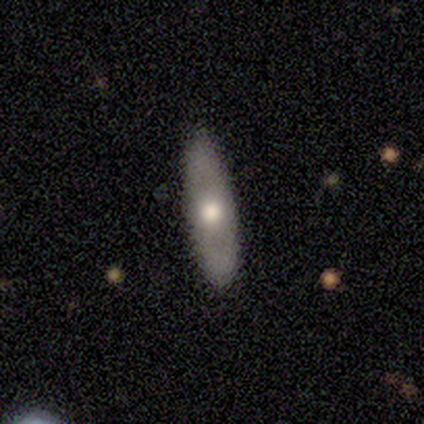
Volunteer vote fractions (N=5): Q: Smooth or featured?
A: featured or disk (60%); runner-up: smooth (20%)
Q: Edge-on disk?
A: yes (100%)
Q: Edge-on bulge?
A: rounded (67%); runner-up: none (33%)
Q: Merging?
A: none (75%); runner-up: minor disturbance (25%)